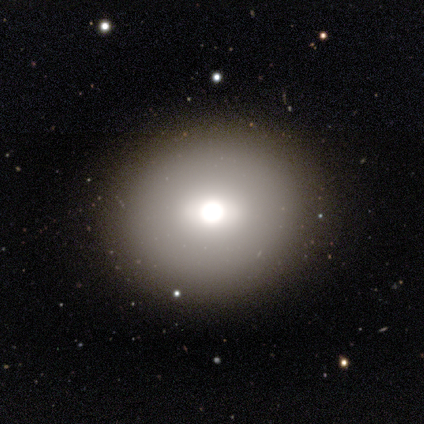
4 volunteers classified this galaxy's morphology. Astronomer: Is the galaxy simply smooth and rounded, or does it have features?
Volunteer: smooth — 75%.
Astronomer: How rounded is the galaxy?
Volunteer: round — 100%.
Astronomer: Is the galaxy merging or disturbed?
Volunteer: none — 67%.